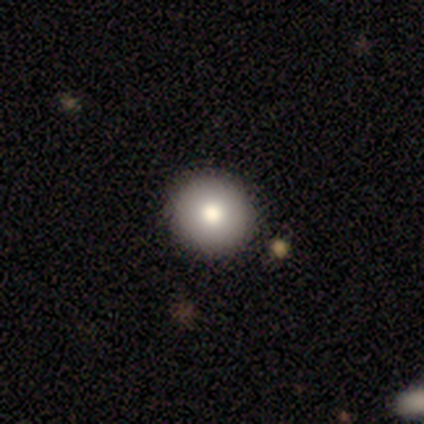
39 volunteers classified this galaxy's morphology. A smooth galaxy with no disk features (56%) that is round (95%).

Vote fractions:
- Smooth or featured? smooth: 56% / featured or disk: 33% / star or artifact: 10%
- How rounded? round: 95% / in between: 5% / cigar-shaped: 0%
- Merging? none: 94% / minor disturbance: 3% / major disturbance: 3% / merger: 0%